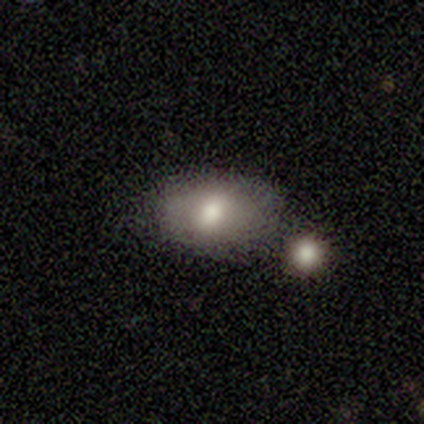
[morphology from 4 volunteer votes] Smooth or featured: star or artifact — 50% (smooth — 25%)